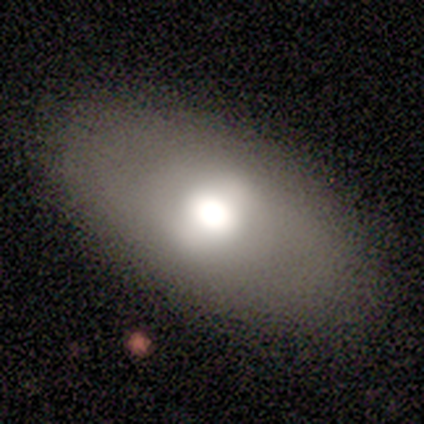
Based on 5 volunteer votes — Volunteers were most divided on "smooth or featured": smooth: 60%, featured or disk: 40%, star or artifact: 0%. More confident: how rounded — in between (100%); merging — none (100%).